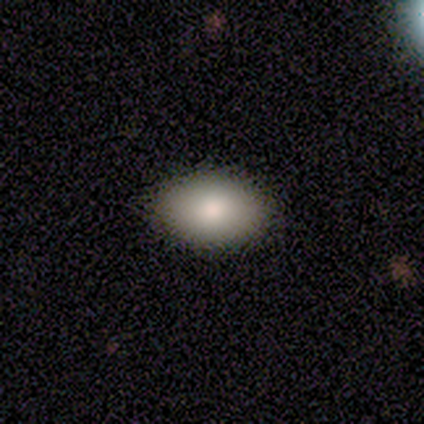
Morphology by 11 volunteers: smooth 91%, featured or disk 9%, star or artifact 0%. Down the decision tree: how rounded — in between (90%); merging — none (91%).